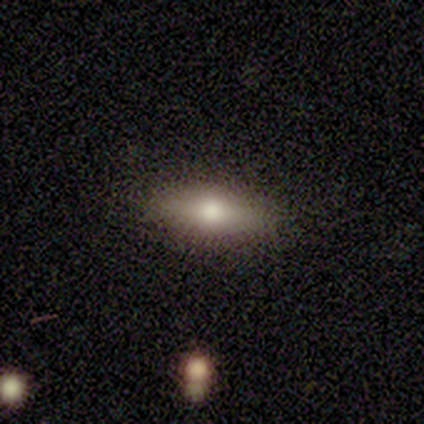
A smooth galaxy with no disk features (43%, tied with featured or disk) that is in between round and cigar-shaped (67%). Merging: none (67%).